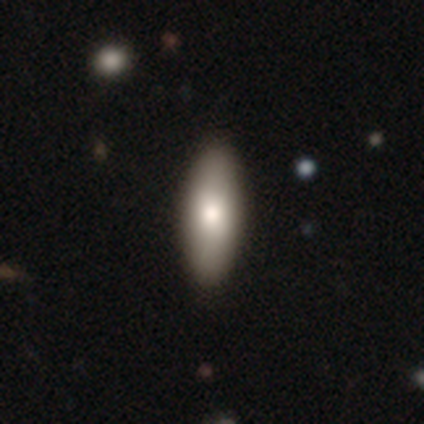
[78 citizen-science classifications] Smooth or featured?
  - smooth: 78% *
  - featured or disk: 12%
  - star or artifact: 10%
How rounded?
  - in between: 75% *
  - cigar-shaped: 23%
  - round: 2%
Merging?
  - none: 47% *
  - merger: 4%
  - minor disturbance: 1%
  - major disturbance: 1%